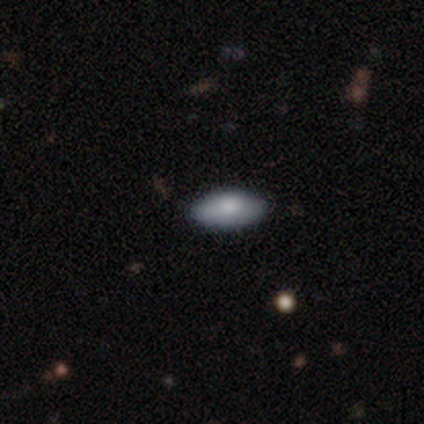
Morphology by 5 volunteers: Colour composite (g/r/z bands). It shows a smooth galaxy with no disk features (60%) that is in between round and cigar-shaped (100%). Merging: none (60%).